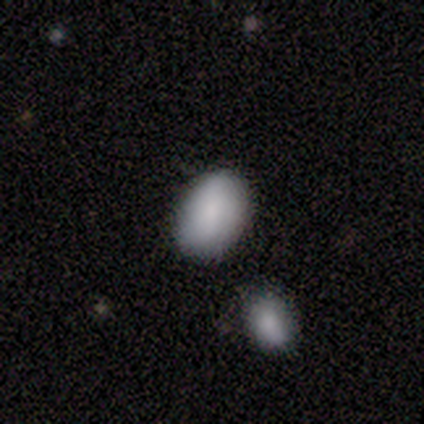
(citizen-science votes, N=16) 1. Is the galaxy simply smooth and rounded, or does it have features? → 88% smooth, 12% featured or disk, 0% star or artifact.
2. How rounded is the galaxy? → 86% in between, 7% round, 7% cigar-shaped.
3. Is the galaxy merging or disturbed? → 81% none, 6% minor disturbance, 6% major disturbance, 6% merger.